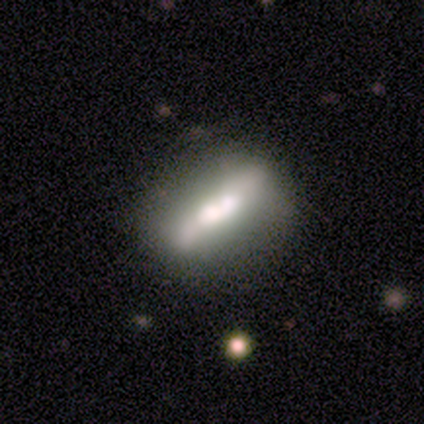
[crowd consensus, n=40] This appears to be a featured or disk galaxy (57%) with no bar (57%), no spiral arms (79%) and a large central bulge (57%). Merging: none (55%).